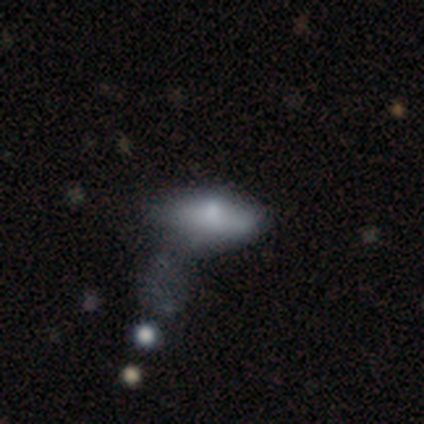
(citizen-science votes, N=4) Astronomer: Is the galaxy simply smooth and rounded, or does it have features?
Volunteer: featured or disk — 50%.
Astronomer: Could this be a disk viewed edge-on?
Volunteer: no — 100%.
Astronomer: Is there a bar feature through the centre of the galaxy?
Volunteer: no — 100%.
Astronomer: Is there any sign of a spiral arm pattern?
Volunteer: no — 100%.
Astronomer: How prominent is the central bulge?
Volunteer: moderate — 50%, tied with none at 50%.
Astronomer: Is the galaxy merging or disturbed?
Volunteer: none — 33%, tied with major disturbance and merger at 33%.